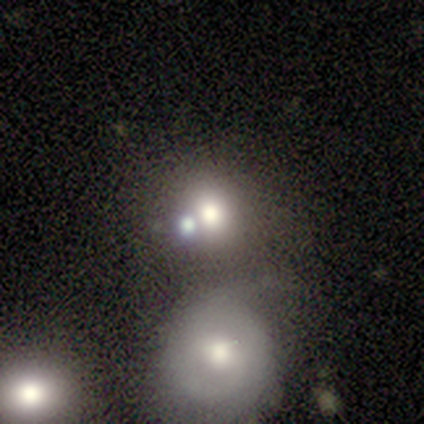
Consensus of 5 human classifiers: Smooth or featured? smooth (80%)
How rounded? round (100%)
Merging? none (75%)